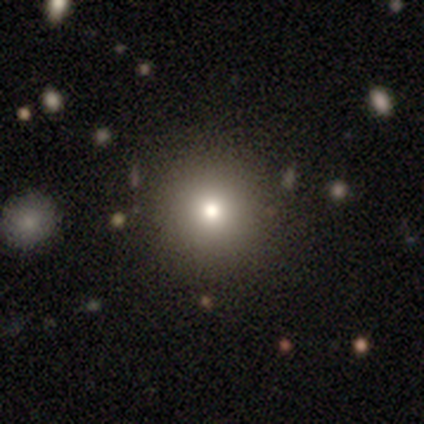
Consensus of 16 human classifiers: A smooth galaxy with no disk features (62%) that is round (100%).

Vote fractions:
- Smooth or featured? smooth: 62% / star or artifact: 31% / featured or disk: 6%
- How rounded? round: 100% / in between: 0% / cigar-shaped: 0%
- Merging? none: 82% / minor disturbance: 18% / major disturbance: 0% / merger: 0%